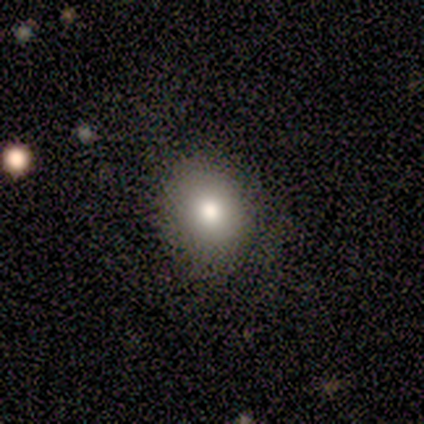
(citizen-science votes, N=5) A smooth galaxy with no disk features (80%) that is round (50%, tied with in between).

Vote fractions:
- Smooth or featured? smooth: 80% / star or artifact: 20% / featured or disk: 0%
- How rounded? round: 50% (tied) / in between: 50% (tied) / cigar-shaped: 0%
- Merging? none: 100% / minor disturbance: 0% / major disturbance: 0% / merger: 0%